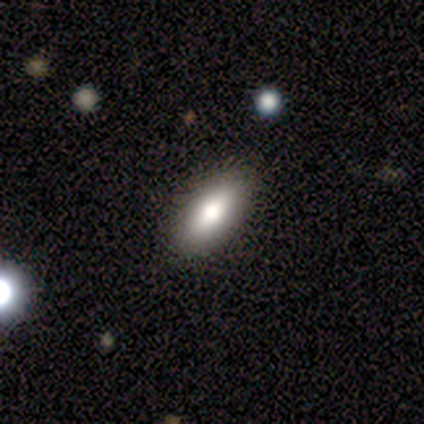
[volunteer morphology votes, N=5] type=smooth (80%); roundness=in between (75%); merging=none (80%).